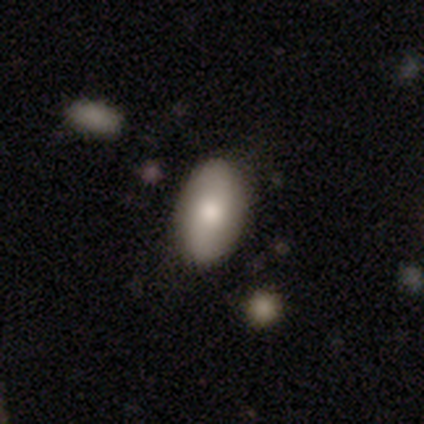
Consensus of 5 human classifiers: Smooth or featured: featured or disk — 60% (smooth — 40%)
Edge-on disk: no — 100%
Bar: no — 67% (weak — 33%)
Spiral arms: yes — 67% (no — 33%)
Spiral winding: medium — 50% (tied with loose — 50%)
Spiral arm count: 2 — 50% (tied with can't tell — 50%)
Bulge size: moderate — 100%
Merging: none — 80% (minor disturbance — 20%)